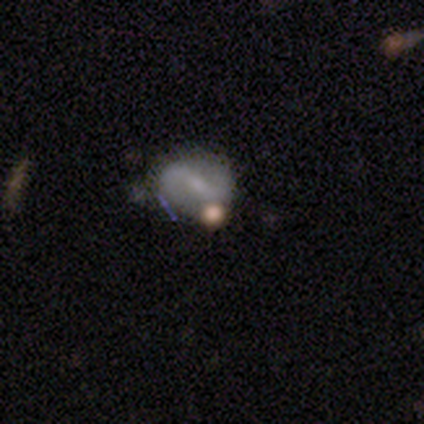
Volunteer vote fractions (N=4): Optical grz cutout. It shows a featured or disk galaxy (100%) with a weak bar (75%), 2 (100%) loose (67%) spiral arms (75%) and a small central bulge (75%). Merging: none (50%).